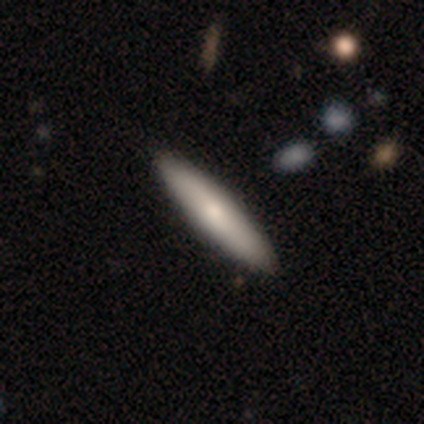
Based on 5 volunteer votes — Q: Smooth or featured?
A: smooth (60%); runner-up: featured or disk (40%)
Q: How rounded?
A: cigar-shaped (67%); runner-up: in between (33%)
Q: Merging?
A: none (100%)